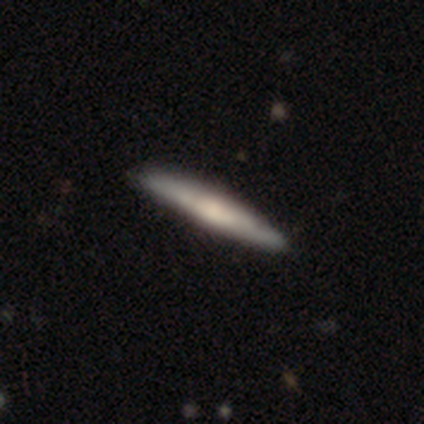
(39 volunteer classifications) smooth-or-featured: featured or disk: 59% | smooth: 38% | star or artifact: 3%
  disk-edge-on: yes: 91% | no: 9%
    edge-on-bulge: rounded: 48% | none: 33% | boxy: 19%
  merging: none: 87% | minor disturbance: 11% | major disturbance: 3% | merger: 0%